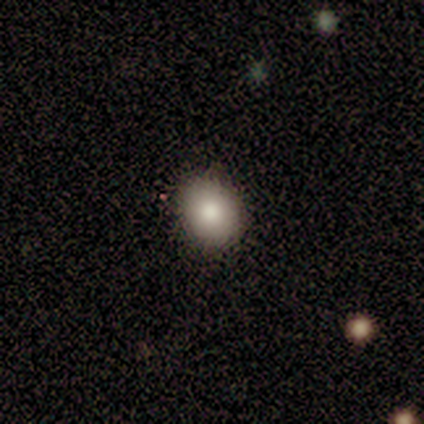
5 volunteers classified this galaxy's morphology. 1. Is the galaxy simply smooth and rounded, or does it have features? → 100% smooth, 0% featured or disk, 0% star or artifact.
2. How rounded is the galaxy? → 60% round, 40% in between, 0% cigar-shaped.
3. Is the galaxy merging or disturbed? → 100% none, 0% minor disturbance, 0% major disturbance, 0% merger.